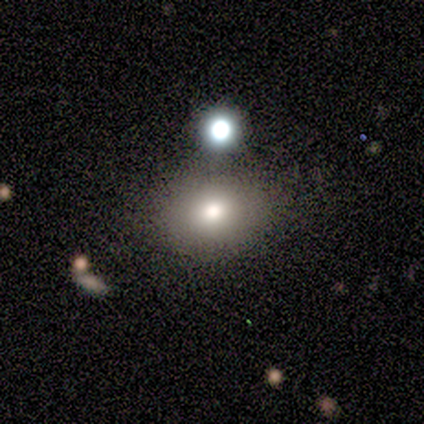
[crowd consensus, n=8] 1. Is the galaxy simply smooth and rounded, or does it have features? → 88% smooth, 12% featured or disk, 0% star or artifact.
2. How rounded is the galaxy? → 57% in between, 43% round, 0% cigar-shaped.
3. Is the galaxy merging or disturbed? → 62% none, 25% merger, 12% minor disturbance, 0% major disturbance.